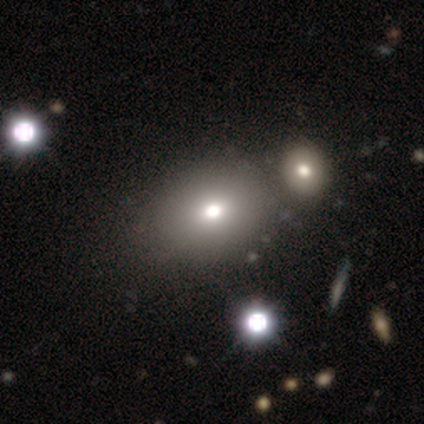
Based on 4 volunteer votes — Q: Smooth or featured?
A: smooth (100%)
Q: How rounded?
A: round (75%); runner-up: in between (25%)
Q: Merging?
A: none (75%); runner-up: merger (25%)